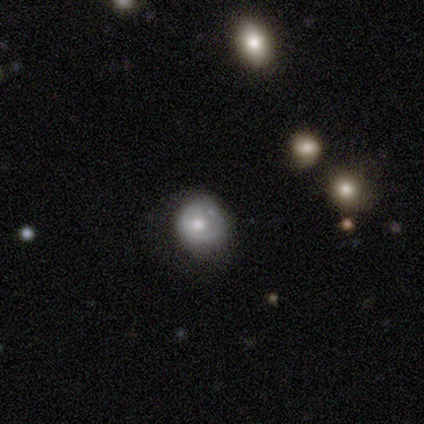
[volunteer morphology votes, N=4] Overall: smooth (100%). How rounded: round (100%). Merging: none (50%, tied with minor disturbance).